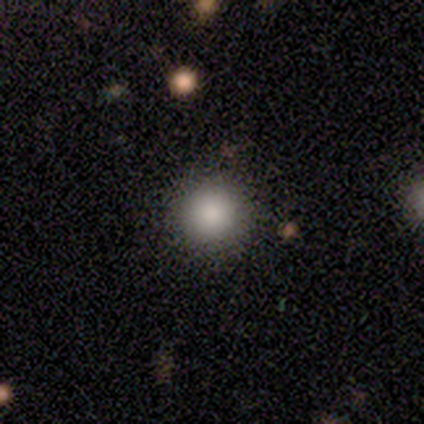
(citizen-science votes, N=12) A smooth galaxy with no disk features (92%) that is round (91%). Merging: none (91%).